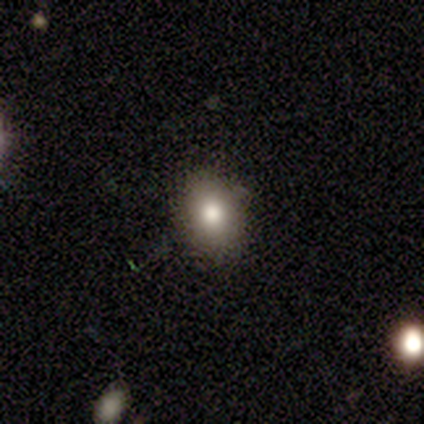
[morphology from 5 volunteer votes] Smooth or featured?
  - smooth: 60% *
  - featured or disk: 20%
  - star or artifact: 20%
How rounded?
  - in between: 67% *
  - round: 33%
  - cigar-shaped: 0%
Merging?
  - none: 75% *
  - minor disturbance: 25%
  - major disturbance: 0%
  - merger: 0%